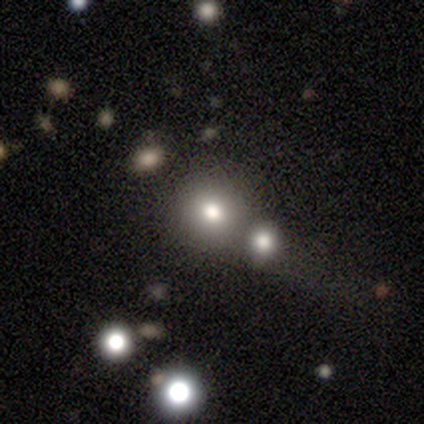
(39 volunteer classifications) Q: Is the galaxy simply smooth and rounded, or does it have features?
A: smooth — 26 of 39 (67%).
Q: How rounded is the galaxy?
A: round — 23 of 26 (88%).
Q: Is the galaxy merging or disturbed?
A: none — 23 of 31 (74%).